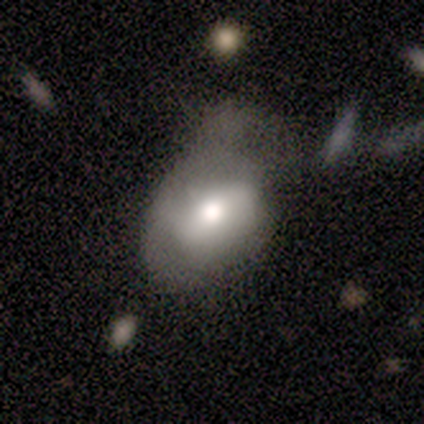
smooth_or_featured: smooth (p=0.60) [alt: featured or disk p=0.40]
how_rounded: in between (p=1.00)
merging: major disturbance (p=0.60) [alt: none p=0.20]